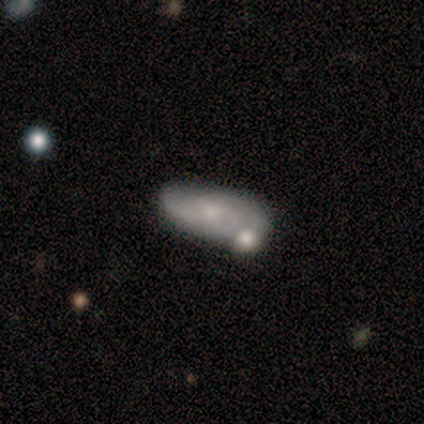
Q: Smooth or featured?
A: featured or disk (100%)
Q: Edge-on disk?
A: no (100%)
Q: Bar?
A: no (80%); runner-up: weak (20%)
Q: Spiral arms?
A: yes (80%); runner-up: no (20%)
Q: Spiral winding?
A: tight (100%)
Q: Spiral arm count?
A: 2 (50%); runner-up: 3 (25%)
Q: Bulge size?
A: small (100%)
Q: Merging?
A: none (60%); runner-up: minor disturbance (20%)